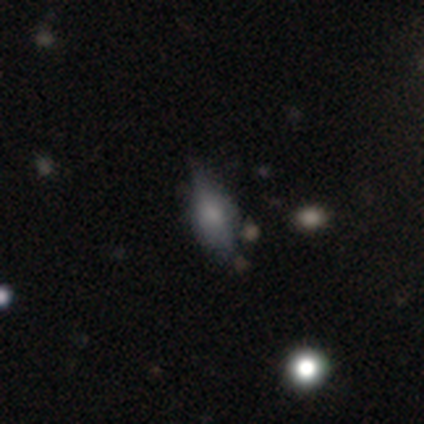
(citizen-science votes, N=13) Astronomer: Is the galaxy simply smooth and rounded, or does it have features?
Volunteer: featured or disk — 69%.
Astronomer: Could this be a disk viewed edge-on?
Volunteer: yes — 78%.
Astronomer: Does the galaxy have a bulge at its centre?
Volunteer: rounded — 43% (runner-up: boxy, 29%).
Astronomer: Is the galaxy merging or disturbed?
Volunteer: none — 54% (runner-up: minor disturbance, 38%).